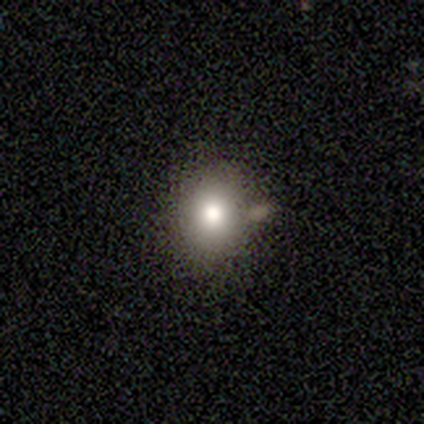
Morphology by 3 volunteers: Overall: smooth (67%; featured or disk 33%). How rounded: in between (100%). Merging: none (67%; minor disturbance 33%).